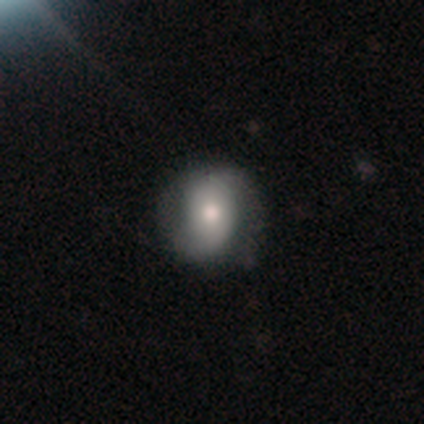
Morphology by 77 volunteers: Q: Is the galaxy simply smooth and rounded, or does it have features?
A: smooth — 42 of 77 (55%).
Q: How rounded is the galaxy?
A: round — 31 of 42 (74%).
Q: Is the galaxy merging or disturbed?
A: none — 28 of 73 (38%).